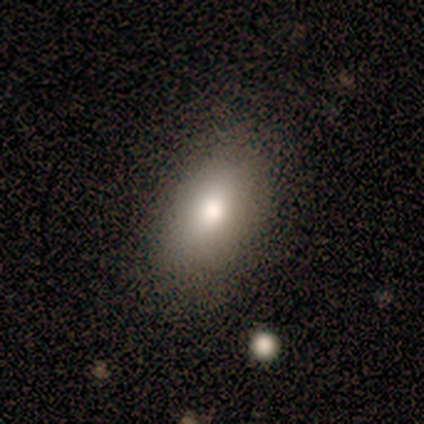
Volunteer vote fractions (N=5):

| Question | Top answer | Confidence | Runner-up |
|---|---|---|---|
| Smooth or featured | smooth | 100% | — |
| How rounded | in between | 100% | — |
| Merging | none | 80% | minor disturbance (20%) |